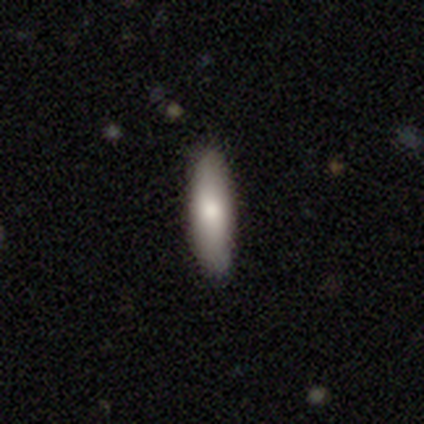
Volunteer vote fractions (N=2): smooth-or-featured: smooth: 100% | featured or disk: 0% | star or artifact: 0%
  how-rounded: in between: 50% (tied) | cigar-shaped: 50% (tied) | round: 0%
  merging: none: 100% | minor disturbance: 0% | major disturbance: 0% | merger: 0%